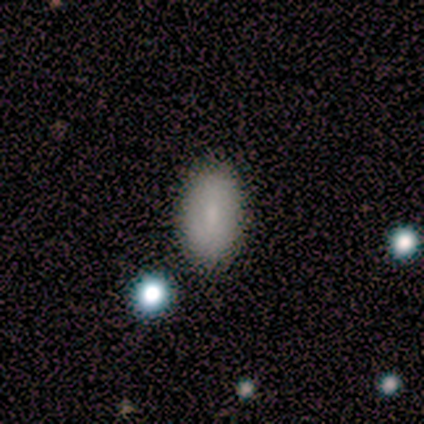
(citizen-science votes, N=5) A smooth galaxy with no disk features (40%, tied with featured or disk) that is in between round and cigar-shaped (100%). Merging: none (75%).